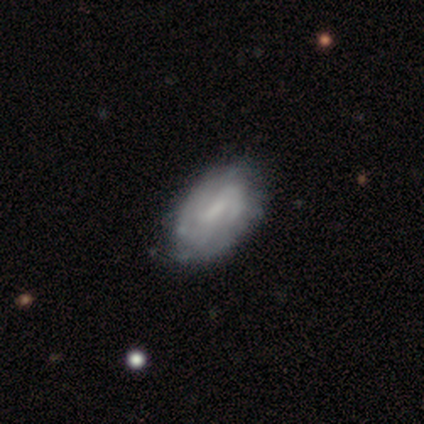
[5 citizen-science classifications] Smooth or featured: featured or disk — 100%
Edge-on disk: no — 100%
Bar: strong — 40% (tied with weak — 40%)
Spiral arms: yes — 100%
Spiral winding: medium — 80% (tight — 20%)
Spiral arm count: 2 — 40% (tied with can't tell — 40%)
Bulge size: small — 40% (tied with none — 40%)
Merging: none — 80% (minor disturbance — 20%)